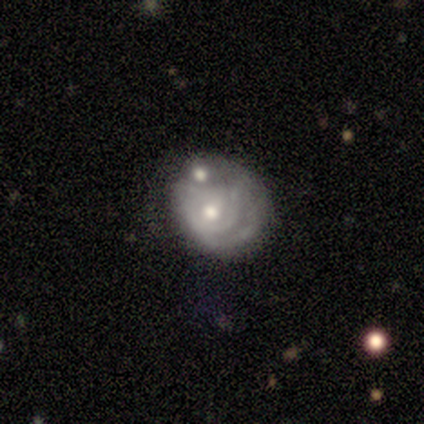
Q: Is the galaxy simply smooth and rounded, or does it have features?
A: featured or disk — 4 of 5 (80%).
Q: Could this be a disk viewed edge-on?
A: no — 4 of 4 (100%).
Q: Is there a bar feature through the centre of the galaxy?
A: weak — 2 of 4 (50%, tied with no).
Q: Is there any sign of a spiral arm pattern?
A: no — 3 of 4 (75%).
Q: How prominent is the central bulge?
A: moderate — 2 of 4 (50%, tied with small).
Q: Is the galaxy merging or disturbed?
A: none — 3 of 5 (60%).